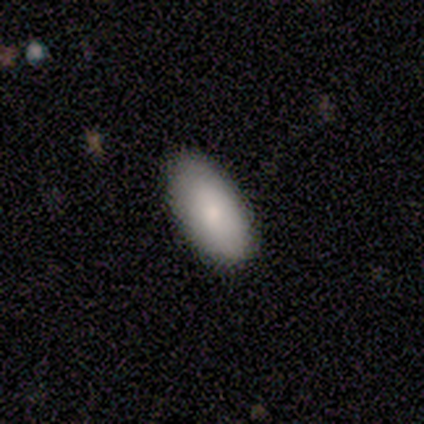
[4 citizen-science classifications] smooth 100%, featured or disk 0%, star or artifact 0%. Down the decision tree: how rounded — in between (100%); merging — none (50%).